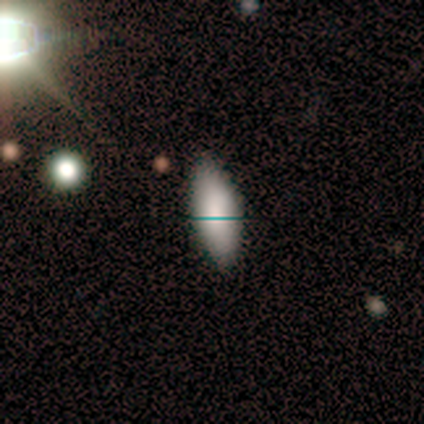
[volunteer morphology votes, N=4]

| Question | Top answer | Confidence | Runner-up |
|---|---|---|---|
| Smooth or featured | smooth | 50% | tied: featured or disk (50%) |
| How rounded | in between | 100% | — |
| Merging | none | 75% | major disturbance (25%) |